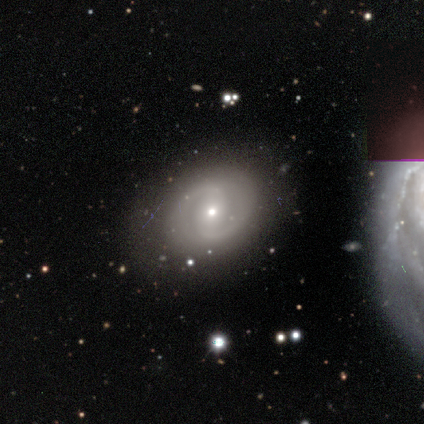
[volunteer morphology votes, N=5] featured or disk 100%, smooth 0%, star or artifact 0%. Down the decision tree: edge-on disk — no (100%); bar — no (60%); spiral arms — yes (80%); spiral arm count — 2 (100%); spiral winding — tight (50%, tied with medium); bulge size — small (100%); merging — none (100%).